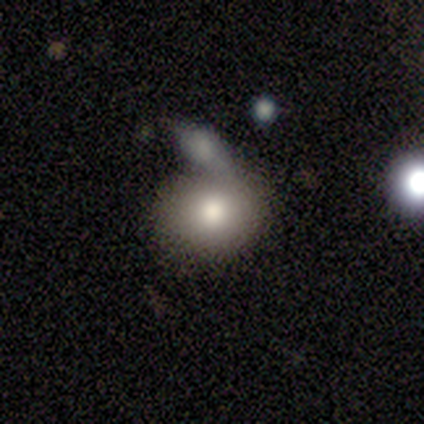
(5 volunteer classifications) Smooth or featured? 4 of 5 (80%) said smooth. How rounded? 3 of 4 (75%) said in between. Merging? 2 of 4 (50%) said none.